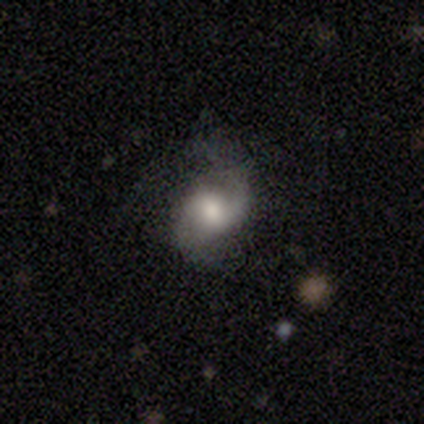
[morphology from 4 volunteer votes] Overall: featured or disk (75%). Edge-on disk: no (100%). Bar: weak (67%; no 33%). Spiral arms: yes (100%). Spiral arm count: 2 (100%). Spiral winding: loose (67%; medium 33%). Bulge size: moderate (67%; large 33%). Merging: minor disturbance (50%; none 25%).